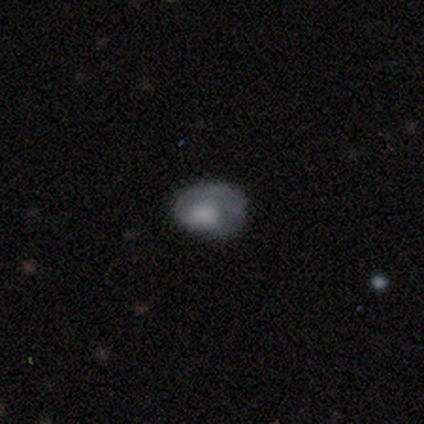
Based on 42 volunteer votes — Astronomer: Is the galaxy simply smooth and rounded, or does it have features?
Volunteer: featured or disk — 52% (runner-up: smooth, 48%).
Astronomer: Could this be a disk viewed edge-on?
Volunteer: no — 100%.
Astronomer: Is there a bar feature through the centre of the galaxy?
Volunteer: no — 95%.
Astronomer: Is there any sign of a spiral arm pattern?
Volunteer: yes — 50%, tied with no at 50%.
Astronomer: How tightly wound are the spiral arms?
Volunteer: tight — 64%.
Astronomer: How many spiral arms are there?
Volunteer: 1 — 73%.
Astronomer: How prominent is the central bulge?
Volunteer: large — 45% (runner-up: none, 27%).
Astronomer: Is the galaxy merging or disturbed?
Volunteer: none — 38% (runner-up: minor disturbance, 33%).